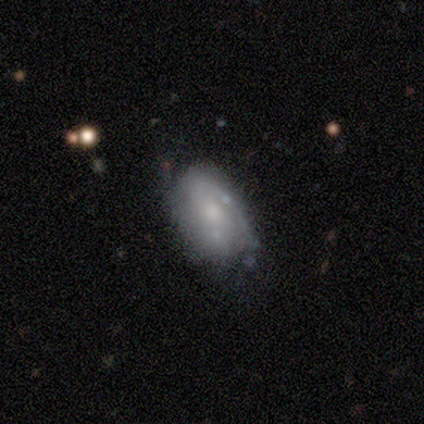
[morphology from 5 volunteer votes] A featured or disk galaxy (60%) with no bar (100%), 1 (33%, tied with 2 and can't tell) loose (67%) spiral arms (100%) and a small central bulge (67%).

Vote fractions:
- Smooth or featured? featured or disk: 60% / smooth: 40% / star or artifact: 0%
- Edge-on disk? no: 100% / yes: 0%
- Bar? no: 100% / strong: 0% / weak: 0%
- Spiral arms? yes: 100% / no: 0%
- Spiral winding? loose: 67% / tight: 33% / medium: 0%
- Spiral arm count? 1: 33% (tied) / 2: 33% (tied) / can't tell: 33% (tied) / 3: 0% / 4: 0% / more than 4: 0%
- Bulge size? small: 67% / moderate: 33% / dominant: 0% / large: 0% / none: 0%
- Merging? none: 60% / minor disturbance: 40% / major disturbance: 0% / merger: 0%